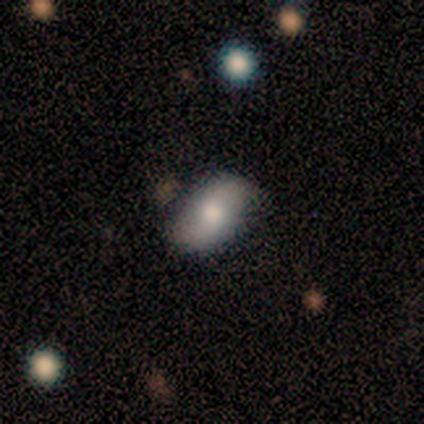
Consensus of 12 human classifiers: smooth 50% (tied), featured or disk 50% (tied), star or artifact 0%. Down the decision tree: how rounded — in between (83%); merging — none (83%).